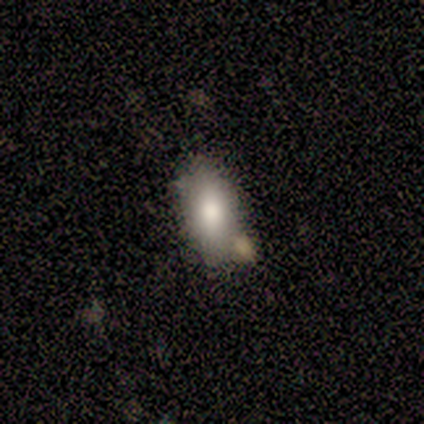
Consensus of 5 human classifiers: smooth 80%, featured or disk 20%, star or artifact 0%. Down the decision tree: how rounded — in between (100%); merging — none (60%).